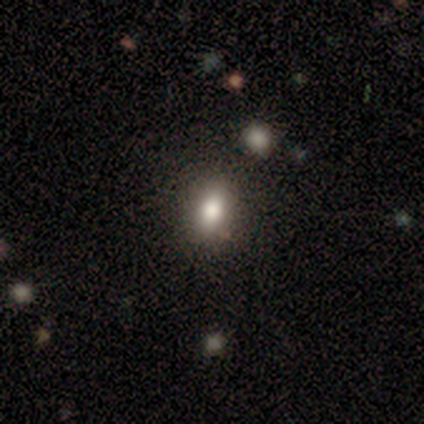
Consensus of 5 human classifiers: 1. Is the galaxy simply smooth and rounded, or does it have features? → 60% smooth, 40% star or artifact, 0% featured or disk.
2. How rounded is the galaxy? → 67% cigar-shaped, 33% in between, 0% round.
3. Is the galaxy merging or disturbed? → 67% none, 33% minor disturbance, 0% major disturbance, 0% merger.